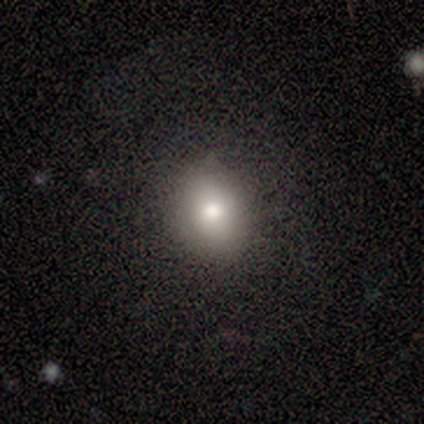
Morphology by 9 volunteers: Smooth or featured: smooth — 67% (star or artifact — 22%)
How rounded: round — 67% (in between — 33%)
Merging: none — 86% (minor disturbance — 14%)